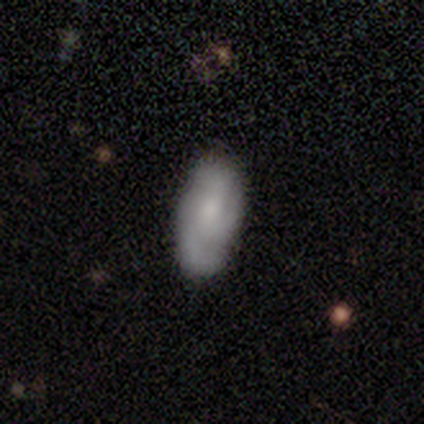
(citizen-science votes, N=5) A smooth galaxy with no disk features (60%) that is in between round and cigar-shaped (100%).

Vote fractions:
- Smooth or featured? smooth: 60% / featured or disk: 20% / star or artifact: 20%
- How rounded? in between: 100% / round: 0% / cigar-shaped: 0%
- Merging? minor disturbance: 75% / none: 25% / major disturbance: 0% / merger: 0%